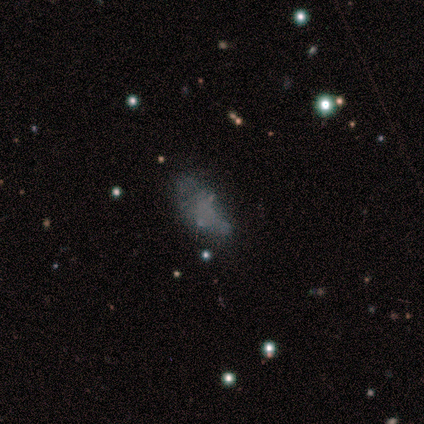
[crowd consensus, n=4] smooth-or-featured: smooth: 75% | star or artifact: 25% | featured or disk: 0%
  how-rounded: in between: 100% | round: 0% | cigar-shaped: 0%
  merging: none: 33% (tied) | major disturbance: 33% (tied) | merger: 33% (tied) | minor disturbance: 0%